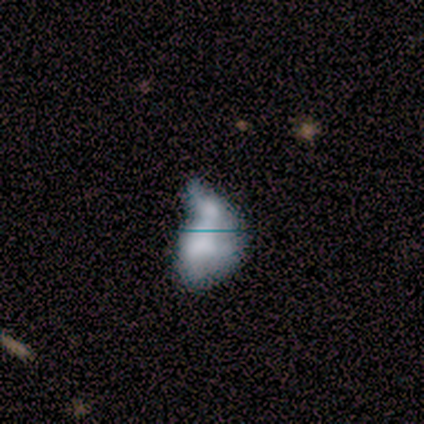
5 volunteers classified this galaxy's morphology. Smooth or featured?
  - smooth: 40% * (tied)
  - featured or disk: 40% * (tied)
  - star or artifact: 20%
How rounded?
  - in between: 100% *
  - round: 0%
  - cigar-shaped: 0%
Merging?
  - merger: 75% *
  - major disturbance: 25%
  - none: 0%
  - minor disturbance: 0%